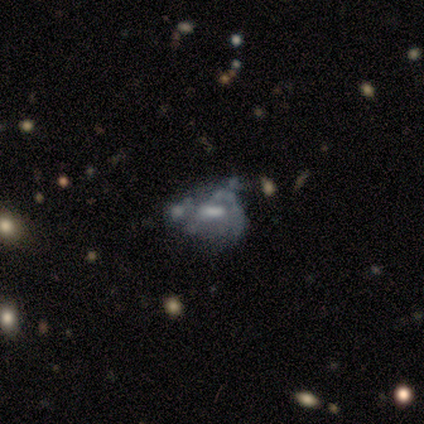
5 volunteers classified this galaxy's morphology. Smooth or featured? 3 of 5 (60%) said featured or disk. Edge-on disk? 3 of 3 (100%) said no. Bar? 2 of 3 (67%) said no. Spiral arms? 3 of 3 (100%) said no. Bulge size? 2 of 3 (67%) said moderate. Merging? 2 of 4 (50%) said none.